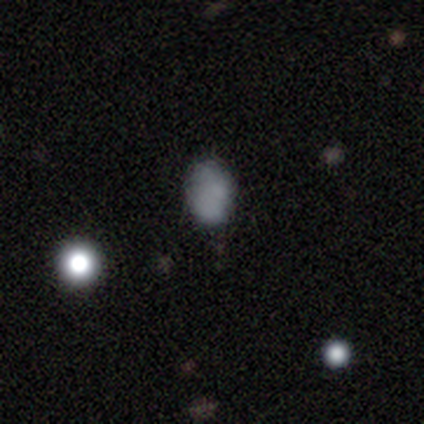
Smooth or featured? smooth (80%)
How rounded? in between (75%)
Merging? none (80%)